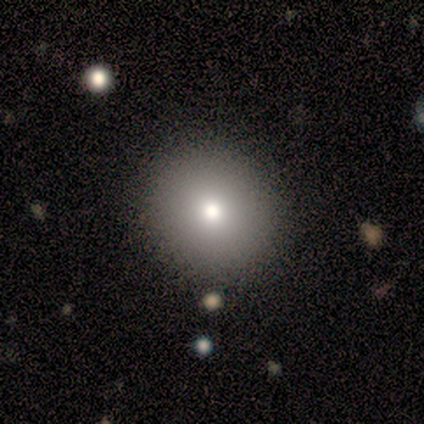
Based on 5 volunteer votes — This is likely a smooth galaxy (60%). How rounded: clearly round (100%). Merging: clearly none (100%).